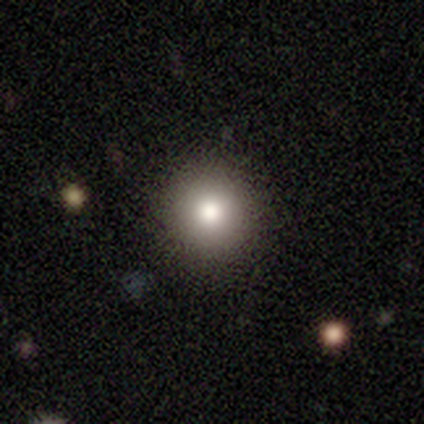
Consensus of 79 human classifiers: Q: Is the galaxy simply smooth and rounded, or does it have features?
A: smooth — 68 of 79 (86%).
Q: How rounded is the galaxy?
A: round — 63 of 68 (93%).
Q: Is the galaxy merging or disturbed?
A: none — 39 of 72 (54%).